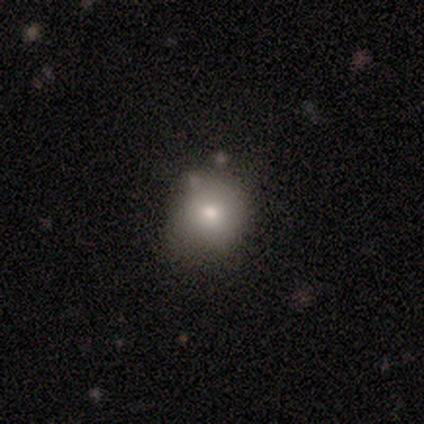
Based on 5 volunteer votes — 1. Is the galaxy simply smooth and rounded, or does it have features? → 80% smooth, 20% featured or disk, 0% star or artifact.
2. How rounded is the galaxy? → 100% round, 0% in between, 0% cigar-shaped.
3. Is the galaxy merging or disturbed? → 60% none, 20% minor disturbance, 20% major disturbance, 0% merger.